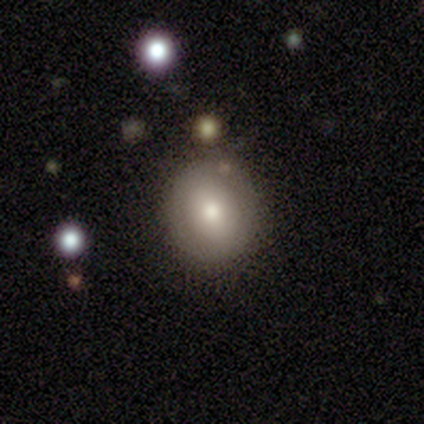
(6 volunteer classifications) A smooth galaxy with no disk features (67%) that is round (100%). Merging: none (100%).